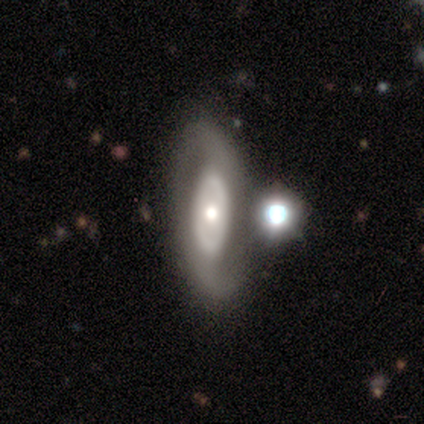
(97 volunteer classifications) Morphology: type=featured or disk (76%); edge-on=no (96%); bar=no (76%); spiral arms=yes (54%); winding=medium (37%, tied with loose); arm count=2 (84%); bulge=moderate (66%); merging=none (65%).